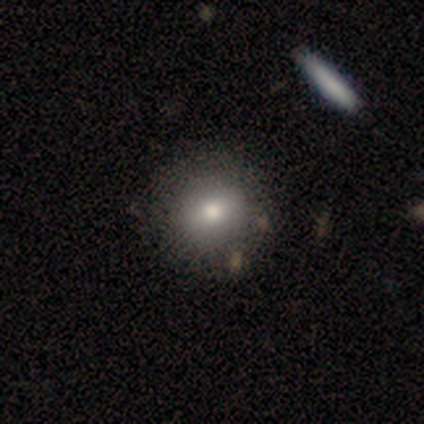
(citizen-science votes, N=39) Q: Smooth or featured?
A: smooth (72%); runner-up: featured or disk (21%)
Q: How rounded?
A: round (89%); runner-up: in between (11%)
Q: Merging?
A: none (75%); runner-up: merger (6%)